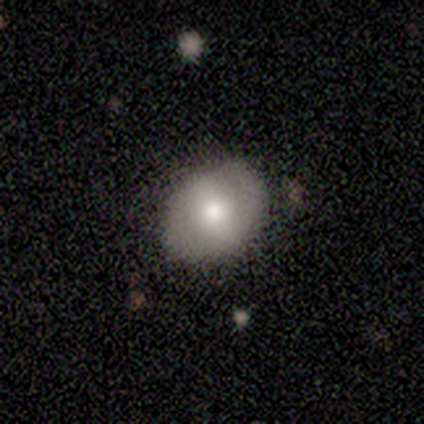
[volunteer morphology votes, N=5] Volunteers were most divided on "bulge size" (3-way tie): large: 33%, moderate: 33%, small: 33%, dominant: 0%, none: 0%. More confident: edge-on disk — no (100%); merging — none (80%); bar — no (67%); spiral arms — no (67%); smooth or featured — featured or disk (60%).